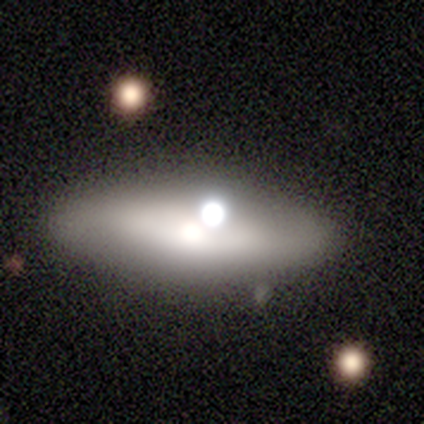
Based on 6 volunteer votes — smooth_or_featured: smooth (p=0.67) [alt: featured or disk p=0.33]
how_rounded: in between (p=0.75) [alt: cigar-shaped p=0.25]
merging: none (p=0.50) [alt: minor disturbance p=0.17]